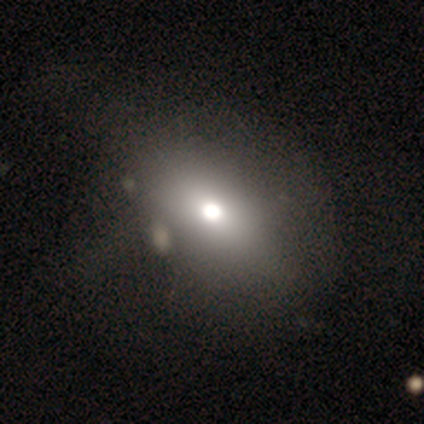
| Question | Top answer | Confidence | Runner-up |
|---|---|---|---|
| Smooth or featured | smooth | 60% | featured or disk (20%) |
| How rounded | in between | 100% | — |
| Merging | none | 50% | major disturbance (25%) |